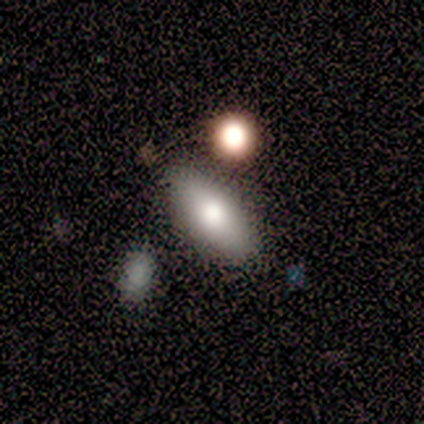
smooth-or-featured: smooth: 80% | star or artifact: 20% | featured or disk: 0%
  how-rounded: in between: 100% | round: 0% | cigar-shaped: 0%
  merging: none: 75% | minor disturbance: 25% | major disturbance: 0% | merger: 0%